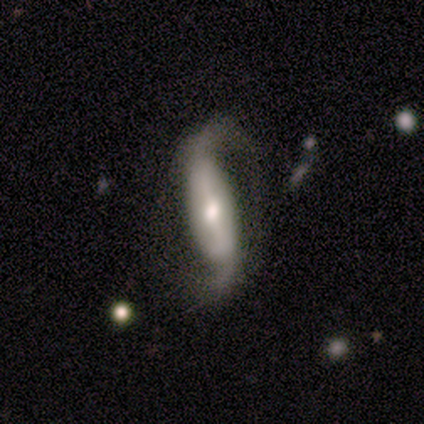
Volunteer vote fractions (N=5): A featured or disk galaxy (60%) with a weak bar (67%), 2 (100%) loose (100%) spiral arms (100%) and a moderate central bulge (67%).

Vote fractions:
- Smooth or featured? featured or disk: 60% / smooth: 20% / star or artifact: 20%
- Edge-on disk? no: 100% / yes: 0%
- Bar? weak: 67% / strong: 33% / no: 0%
- Spiral arms? yes: 100% / no: 0%
- Spiral winding? loose: 100% / tight: 0% / medium: 0%
- Spiral arm count? 2: 100% / 1: 0% / 3: 0% / 4: 0% / more than 4: 0% / can't tell: 0%
- Bulge size? moderate: 67% / small: 33% / dominant: 0% / large: 0% / none: 0%
- Merging? none: 50% / minor disturbance: 25% / major disturbance: 25% / merger: 0%